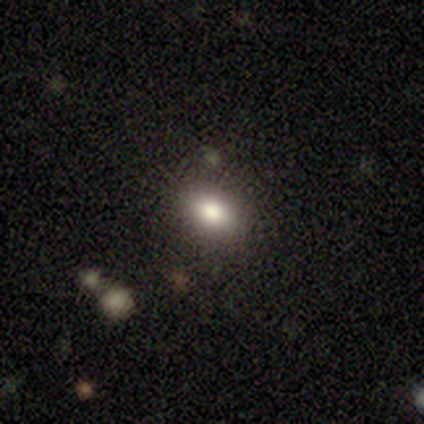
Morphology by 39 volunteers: A smooth galaxy with no disk features (74%) that is in between round and cigar-shaped (69%). Merging: none (86%).